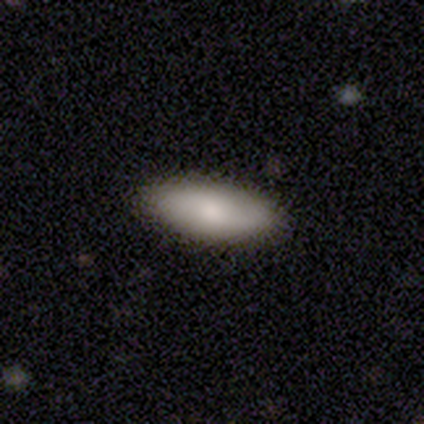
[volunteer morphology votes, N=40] Volunteers were most divided on "smooth or featured": smooth: 72%, featured or disk: 22%, star or artifact: 5%. More confident: merging — none (92%); how rounded — in between (76%).